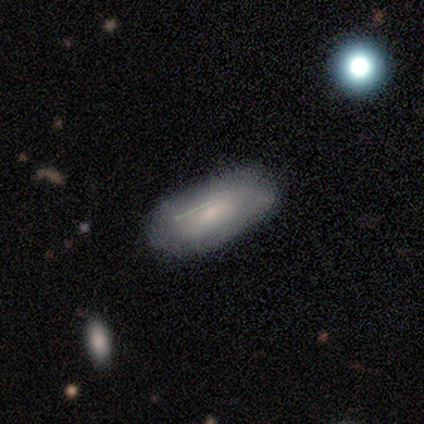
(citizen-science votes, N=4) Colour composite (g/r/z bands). It shows a smooth galaxy with no disk features (100%) that is in between round and cigar-shaped (50%, tied with cigar-shaped). Merging: none (50%).